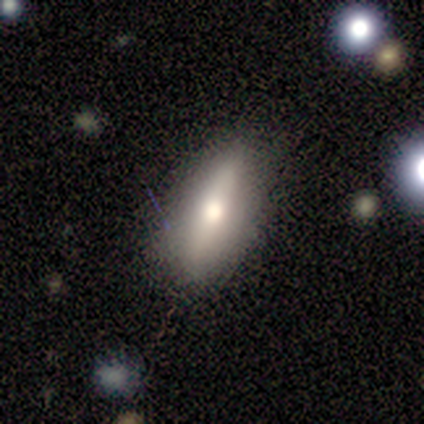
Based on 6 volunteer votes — A smooth galaxy with no disk features (67%) that is in between round and cigar-shaped (50%, tied with cigar-shaped).

Vote fractions:
- Smooth or featured? smooth: 67% / featured or disk: 33% / star or artifact: 0%
- How rounded? in between: 50% (tied) / cigar-shaped: 50% (tied) / round: 0%
- Merging? none: 83% / major disturbance: 17% / minor disturbance: 0% / merger: 0%